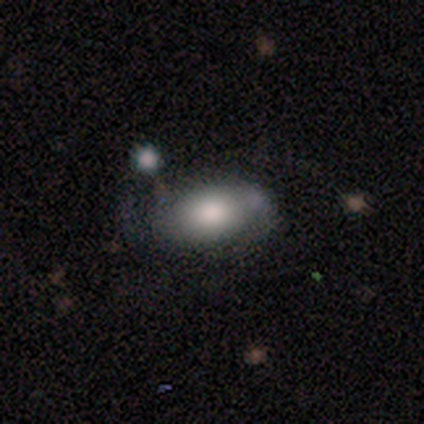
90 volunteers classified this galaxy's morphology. Smooth or featured?
  - smooth: 64% *
  - featured or disk: 29%
  - star or artifact: 7%
How rounded?
  - in between: 97% *
  - round: 2%
  - cigar-shaped: 2%
Merging?
  - none: 60% *
  - minor disturbance: 24%
  - major disturbance: 11%
  - merger: 6%